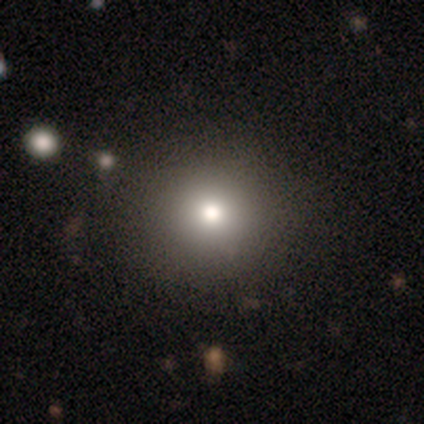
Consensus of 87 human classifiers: A smooth galaxy with no disk features (72%) that is round (97%). Merging: none (90%).